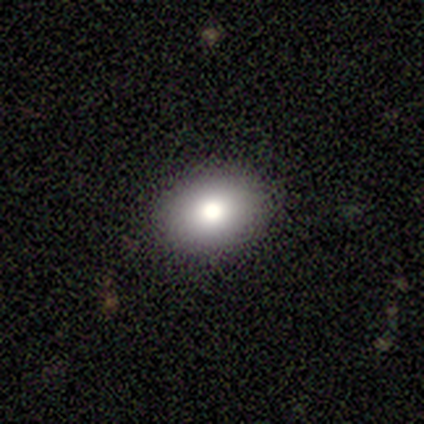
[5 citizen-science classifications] This is clearly a smooth galaxy (100%). How rounded: clearly in between (80%). Merging: clearly none (80%).